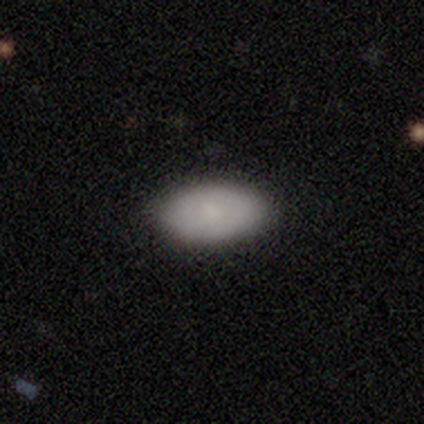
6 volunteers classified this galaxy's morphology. Overall: smooth (67%). How rounded: in between (75%). Merging: none (100%).